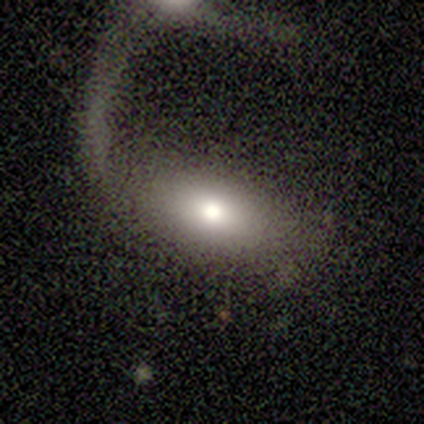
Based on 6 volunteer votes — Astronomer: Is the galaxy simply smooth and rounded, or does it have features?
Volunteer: smooth — 83%.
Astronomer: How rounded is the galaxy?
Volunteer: in between — 100%.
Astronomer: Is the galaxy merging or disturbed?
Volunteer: major disturbance — 60%.